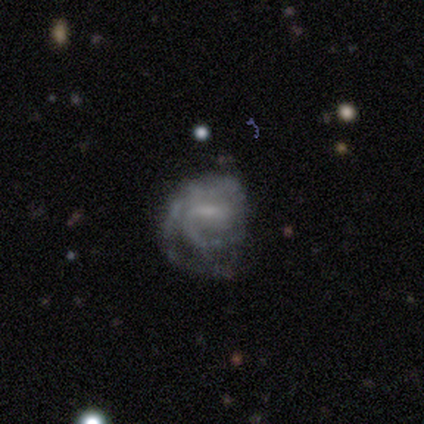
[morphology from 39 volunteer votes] Smooth or featured?
  - featured or disk: 87% *
  - smooth: 10%
  - star or artifact: 3%
Edge-on disk?
  - no: 100% *
  - yes: 0%
Bar?
  - weak: 68% *
  - no: 18%
  - strong: 15%
Spiral arms?
  - yes: 88% *
  - no: 12%
Spiral winding?
  - tight: 43% *
  - medium: 37%
  - loose: 20%
Spiral arm count?
  - 2: 43% *
  - can't tell: 37%
  - 1: 17%
  - 3: 3%
  - 4: 0%
  - more than 4: 0%
Bulge size?
  - none: 41% *
  - small: 38%
  - moderate: 15%
  - dominant: 3%
  - large: 3%
Merging?
  - none: 55% *
  - major disturbance: 29%
  - minor disturbance: 16%
  - merger: 0%